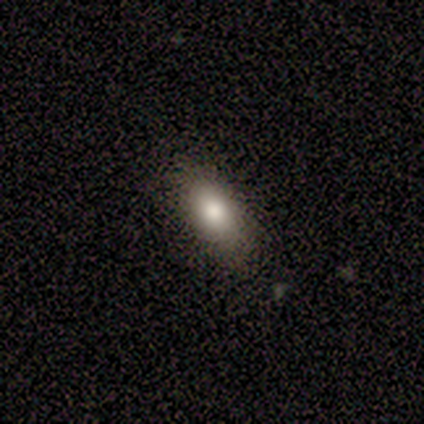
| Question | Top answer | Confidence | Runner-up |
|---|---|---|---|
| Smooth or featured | star or artifact | 50% | smooth (25%) |